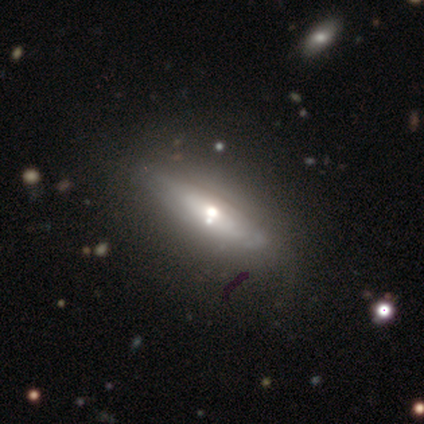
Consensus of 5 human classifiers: Volunteers were most divided on "smooth or featured": featured or disk: 60%, smooth: 40%, star or artifact: 0%. More confident: edge-on disk — yes (100%); merging — none (80%); edge-on bulge — rounded (67%).